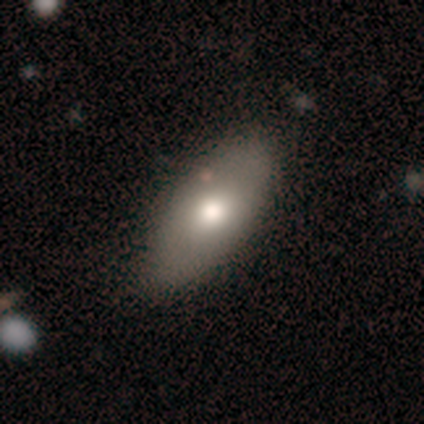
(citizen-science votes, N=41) A smooth galaxy with no disk features (68%) that is in between round and cigar-shaped (75%).

Vote fractions:
- Smooth or featured? smooth: 68% / featured or disk: 27% / star or artifact: 5%
- How rounded? in between: 75% / cigar-shaped: 21% / round: 4%
- Merging? none: 72% / minor disturbance: 21% / major disturbance: 5% / merger: 3%